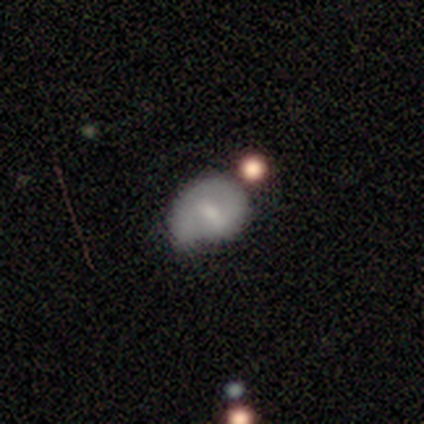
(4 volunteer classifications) A featured or disk galaxy (75%) with a weak bar (67%), 1 (67%) tight (33%, tied with medium and loose) spiral arms (100%) and a small central bulge (100%). Merging: none (50%).